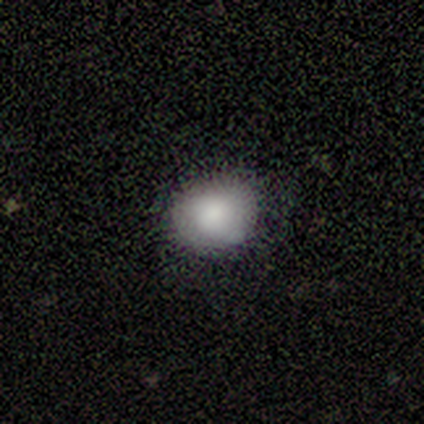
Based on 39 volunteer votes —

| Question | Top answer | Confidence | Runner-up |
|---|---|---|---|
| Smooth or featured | smooth | 87% | featured or disk (10%) |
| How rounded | round | 53% | in between (47%) |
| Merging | none | 84% | minor disturbance (16%) |